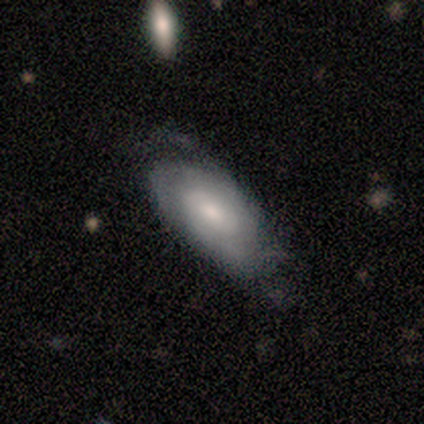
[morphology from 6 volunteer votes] smooth 50%, featured or disk 33%, star or artifact 17%. Down the decision tree: how rounded — in between (100%); merging — none (60%).